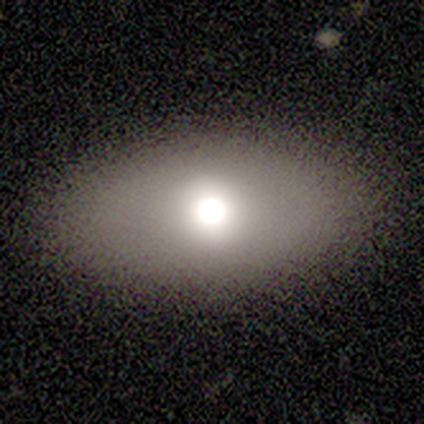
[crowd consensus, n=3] smooth 67%, star or artifact 33%, featured or disk 0%. Down the decision tree: how rounded — in between (50%, tied with cigar-shaped); merging — none (100%).